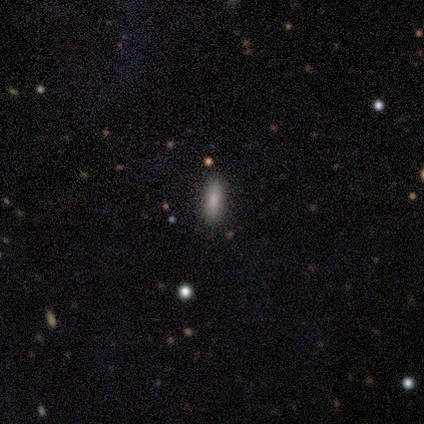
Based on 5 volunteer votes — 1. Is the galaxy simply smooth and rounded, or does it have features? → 80% smooth, 20% star or artifact, 0% featured or disk.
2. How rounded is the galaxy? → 50% in between (tied), 50% cigar-shaped (tied), 0% round.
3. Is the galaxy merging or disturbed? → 100% none, 0% minor disturbance, 0% major disturbance, 0% merger.